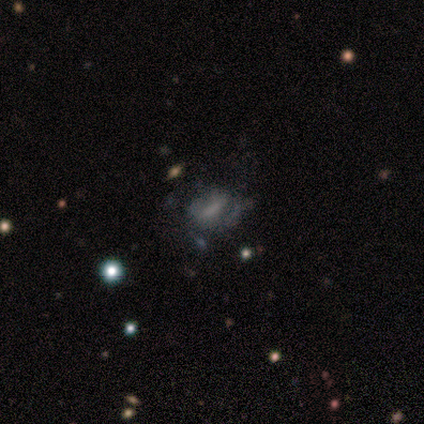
smooth_or_featured: featured or disk (p=0.59) [alt: smooth p=0.30]
disk_edge_on: no (p=0.95) [alt: yes p=0.05]
bar: no (p=0.57) [alt: weak p=0.24]
has_spiral_arms: no (p=0.62) [alt: yes p=0.38]
bulge_size: none (p=0.48) [alt: small p=0.33]
merging: none (p=0.48) [alt: minor disturbance p=0.33]